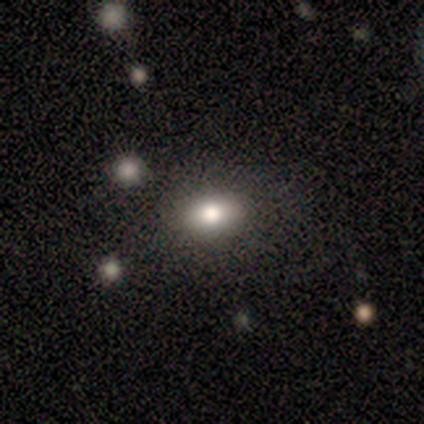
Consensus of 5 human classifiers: Q: Smooth or featured?
A: smooth (40%); tied with: featured or disk (40%)
Q: How rounded?
A: in between (100%)
Q: Merging?
A: none (75%); runner-up: minor disturbance (25%)